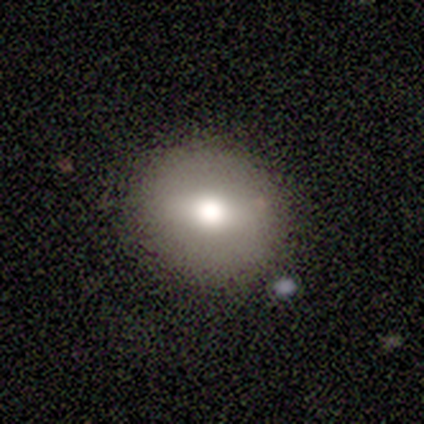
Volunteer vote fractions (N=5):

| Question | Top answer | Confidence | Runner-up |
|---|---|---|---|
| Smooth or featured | smooth | 60% | featured or disk (40%) |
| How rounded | round | 100% | — |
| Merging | none | 80% | major disturbance (20%) |